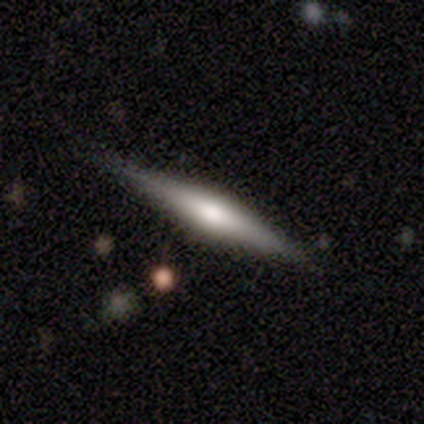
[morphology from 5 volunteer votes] Overall: featured or disk (100%). Edge-on disk: yes (100%). Edge-on bulge: rounded (100%). Merging: none (100%).